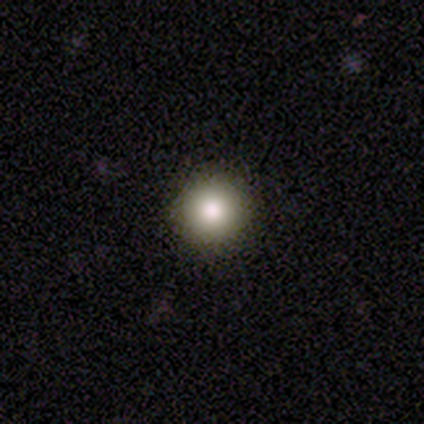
Q: Smooth or featured?
A: smooth (78%); runner-up: star or artifact (12%)
Q: How rounded?
A: round (97%); runner-up: in between (3%)
Q: Merging?
A: none (94%); runner-up: minor disturbance (3%)